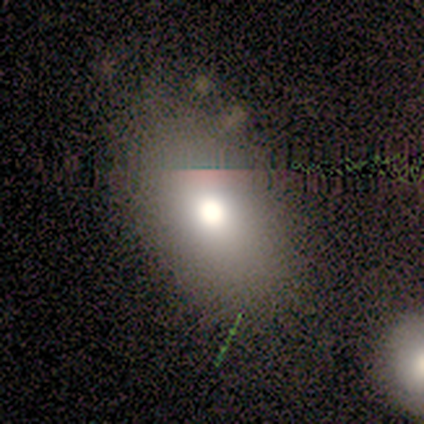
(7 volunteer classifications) This appears to be a smooth galaxy with no disk features (71%) that is in between round and cigar-shaped (80%). Merging: none (80%).